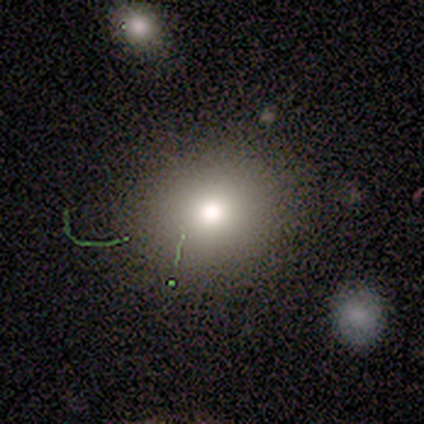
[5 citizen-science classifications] smooth_or_featured: smooth (p=0.80) [alt: star or artifact p=0.20]
how_rounded: round (p=1.00)
merging: none (p=1.00)